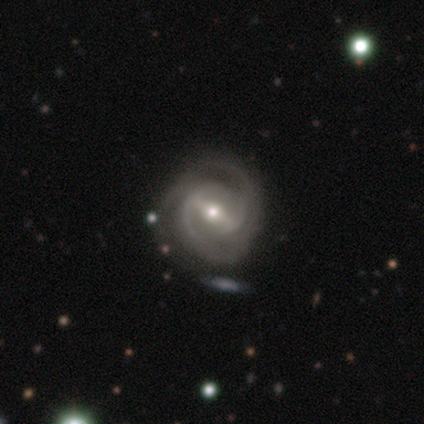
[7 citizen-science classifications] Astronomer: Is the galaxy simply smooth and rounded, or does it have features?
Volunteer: featured or disk — 100%.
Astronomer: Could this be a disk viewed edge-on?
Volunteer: no — 86%.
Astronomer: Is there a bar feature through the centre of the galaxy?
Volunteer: strong — 67%.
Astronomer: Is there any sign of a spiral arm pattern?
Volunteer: yes — 100%.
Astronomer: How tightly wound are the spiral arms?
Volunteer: tight — 50%, tied with medium at 50%.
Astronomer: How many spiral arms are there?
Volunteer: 2 — 50% (runner-up: 3, 33%).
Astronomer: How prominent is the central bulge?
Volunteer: moderate — 100%.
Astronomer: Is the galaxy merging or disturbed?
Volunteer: none — 43%, tied with minor disturbance at 43%.